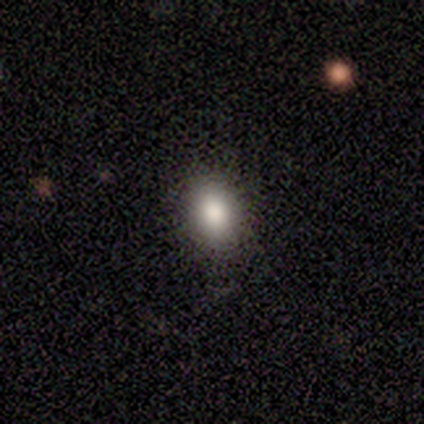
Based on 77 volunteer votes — A smooth galaxy with no disk features (91%) that is in between round and cigar-shaped (67%). Merging: none (53%).